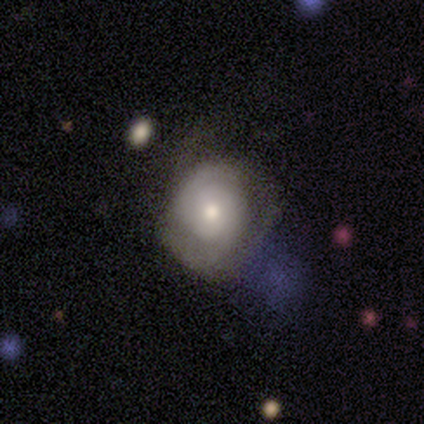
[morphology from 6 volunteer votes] Smooth or featured: featured or disk — 100%
Edge-on disk: no — 100%
Bar: no — 83% (weak — 17%)
Spiral arms: yes — 83% (no — 17%)
Spiral winding: tight — 80% (loose — 20%)
Spiral arm count: 2 — 80% (can't tell — 20%)
Bulge size: moderate — 67% (small — 33%)
Merging: none — 50% (minor disturbance — 33%)